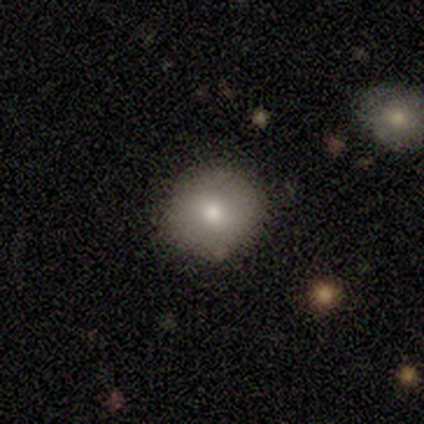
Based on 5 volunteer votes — smooth-or-featured: smooth: 100% | featured or disk: 0% | star or artifact: 0%
  how-rounded: round: 60% | in between: 40% | cigar-shaped: 0%
  merging: none: 100% | minor disturbance: 0% | major disturbance: 0% | merger: 0%